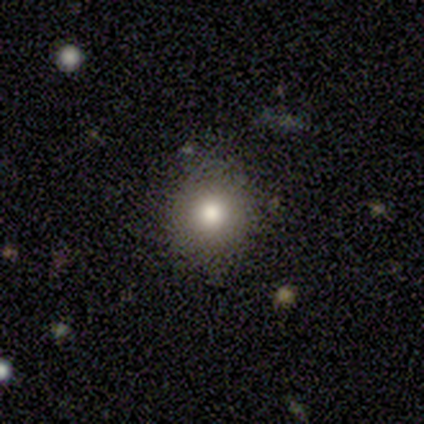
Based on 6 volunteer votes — Q: Smooth or featured?
A: smooth (50%); runner-up: featured or disk (33%)
Q: How rounded?
A: round (100%)
Q: Merging?
A: none (80%); runner-up: minor disturbance (20%)